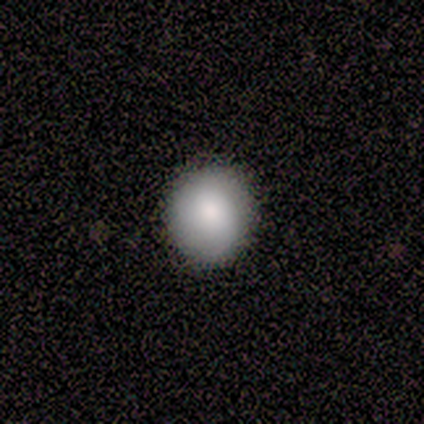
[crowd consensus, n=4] smooth 75%, featured or disk 25%, star or artifact 0%. Down the decision tree: how rounded — round (100%); merging — none (100%).